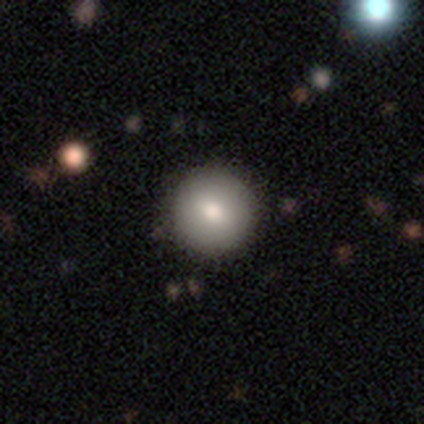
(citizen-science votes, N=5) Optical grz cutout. It shows a smooth galaxy with no disk features (80%) that is round (100%). Merging: none (50%, tied with minor disturbance).